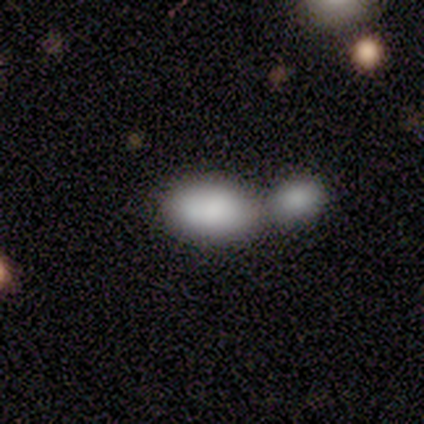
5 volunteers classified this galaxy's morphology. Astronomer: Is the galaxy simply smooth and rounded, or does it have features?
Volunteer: smooth — 60% (runner-up: featured or disk, 40%).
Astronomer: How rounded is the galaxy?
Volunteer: in between — 100%.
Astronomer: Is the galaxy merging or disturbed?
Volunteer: merger — 80%.